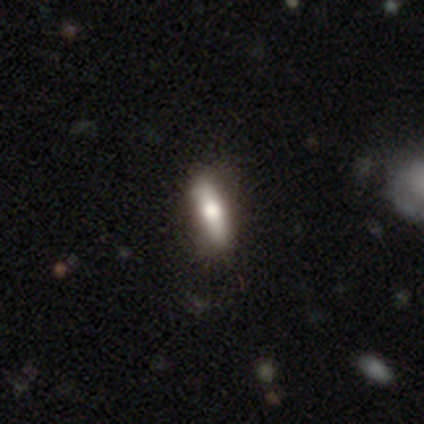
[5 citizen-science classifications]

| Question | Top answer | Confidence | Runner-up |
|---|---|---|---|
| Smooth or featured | smooth | 60% | featured or disk (40%) |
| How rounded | cigar-shaped | 67% | in between (33%) |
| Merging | none | 100% | — |